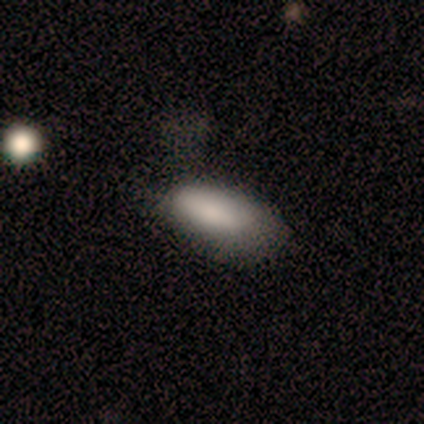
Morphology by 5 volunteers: A smooth galaxy with no disk features (60%) that is in between round and cigar-shaped (100%).

Vote fractions:
- Smooth or featured? smooth: 60% / featured or disk: 20% / star or artifact: 20%
- How rounded? in between: 100% / round: 0% / cigar-shaped: 0%
- Merging? none: 50% / minor disturbance: 25% / major disturbance: 25% / merger: 0%